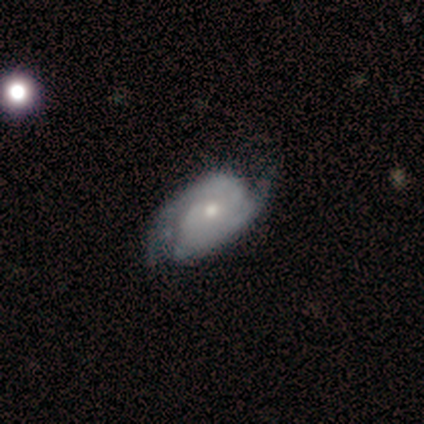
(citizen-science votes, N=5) Morphology: type=featured or disk (80%); edge-on=no (100%); bar=weak (75%); spiral arms=yes (75%); winding=tight (67%); arm count=2 (100%); bulge=small (75%); merging=none (100%).